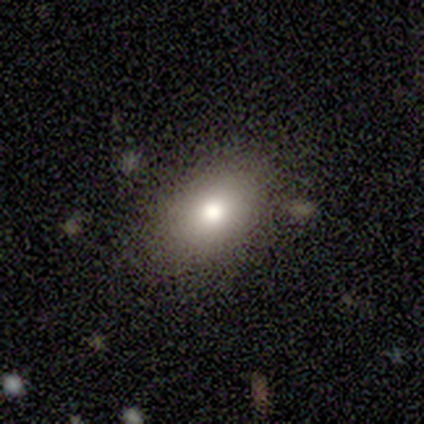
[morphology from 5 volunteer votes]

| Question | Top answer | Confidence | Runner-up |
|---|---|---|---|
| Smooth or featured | smooth | 100% | — |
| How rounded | in between | 80% | round (20%) |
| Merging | none | 100% | — |